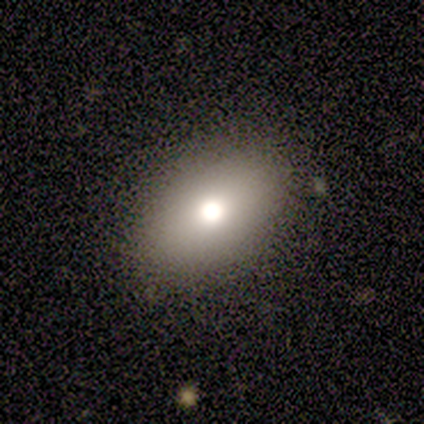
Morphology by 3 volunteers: A smooth galaxy with no disk features (67%) that is round (50%, tied with in between).

Vote fractions:
- Smooth or featured? smooth: 67% / star or artifact: 33% / featured or disk: 0%
- How rounded? round: 50% (tied) / in between: 50% (tied) / cigar-shaped: 0%
- Merging? none: 50% (tied) / major disturbance: 50% (tied) / minor disturbance: 0% / merger: 0%